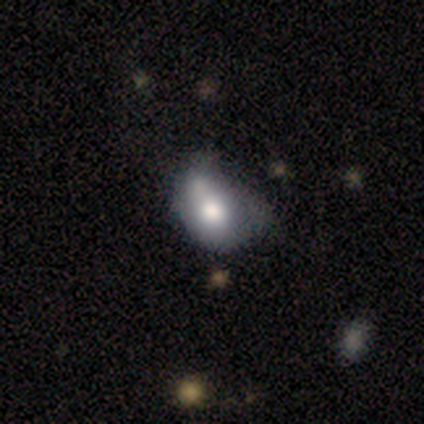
Smooth or featured?
  - smooth: 100% *
  - featured or disk: 0%
  - star or artifact: 0%
How rounded?
  - in between: 75% *
  - round: 25%
  - cigar-shaped: 0%
Merging?
  - minor disturbance: 50% * (tied)
  - merger: 50% * (tied)
  - none: 0%
  - major disturbance: 0%